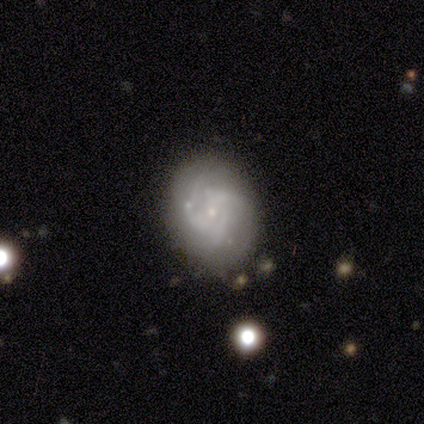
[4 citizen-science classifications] A smooth galaxy with no disk features (50%, tied with featured or disk) that is round (50%, tied with in between).

Vote fractions:
- Smooth or featured? smooth: 50% (tied) / featured or disk: 50% (tied) / star or artifact: 0%
- How rounded? round: 50% (tied) / in between: 50% (tied) / cigar-shaped: 0%
- Merging? none: 75% / minor disturbance: 25% / major disturbance: 0% / merger: 0%